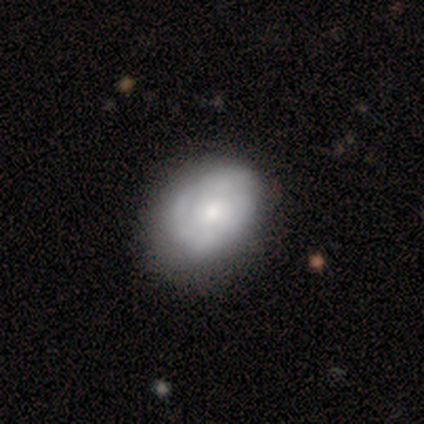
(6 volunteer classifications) Morphology: type=featured or disk (67%); edge-on=no (100%); bar=no (100%); spiral arms=no (75%); bulge=small (50%); merging=none (60%).